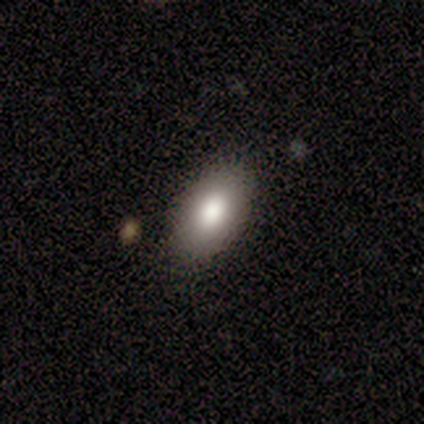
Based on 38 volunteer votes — Smooth or featured?
  - smooth: 89% *
  - featured or disk: 5%
  - star or artifact: 5%
How rounded?
  - in between: 88% *
  - round: 12%
  - cigar-shaped: 0%
Merging?
  - none: 81% *
  - minor disturbance: 11%
  - merger: 6%
  - major disturbance: 3%